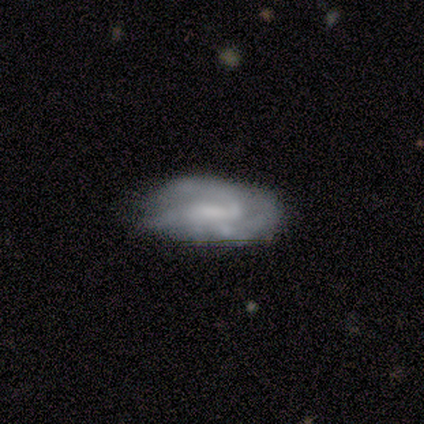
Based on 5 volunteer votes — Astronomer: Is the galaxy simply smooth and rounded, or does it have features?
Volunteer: featured or disk — 80%.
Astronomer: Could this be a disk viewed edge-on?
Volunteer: no — 100%.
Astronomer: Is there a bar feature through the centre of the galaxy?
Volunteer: no — 100%.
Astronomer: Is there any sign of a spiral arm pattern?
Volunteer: no — 75%.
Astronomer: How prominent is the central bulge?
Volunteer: none — 50%.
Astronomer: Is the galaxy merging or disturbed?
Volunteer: minor disturbance — 40%, tied with major disturbance at 40%.